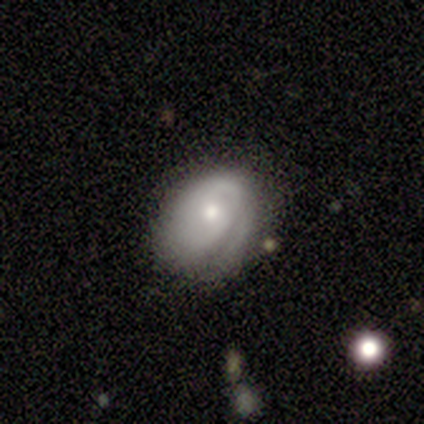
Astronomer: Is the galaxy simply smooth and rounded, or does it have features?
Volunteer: featured or disk — 58% (runner-up: smooth, 42%).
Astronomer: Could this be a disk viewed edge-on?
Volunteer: no — 100%.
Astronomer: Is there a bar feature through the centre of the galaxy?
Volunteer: no — 100%.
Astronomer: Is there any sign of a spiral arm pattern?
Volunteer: yes — 71%.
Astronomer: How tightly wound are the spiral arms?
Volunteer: tight — 60%.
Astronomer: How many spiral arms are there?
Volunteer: can't tell — 80%.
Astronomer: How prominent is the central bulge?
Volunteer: moderate — 57% (runner-up: small, 43%).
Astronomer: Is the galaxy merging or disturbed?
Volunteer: minor disturbance — 58% (runner-up: none, 42%).